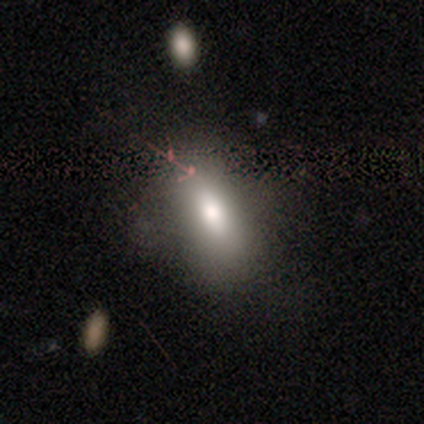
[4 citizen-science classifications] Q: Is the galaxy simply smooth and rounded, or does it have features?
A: smooth — 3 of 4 (75%).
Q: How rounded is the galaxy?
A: in between — 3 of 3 (100%).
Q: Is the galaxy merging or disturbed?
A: none — 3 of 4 (75%).